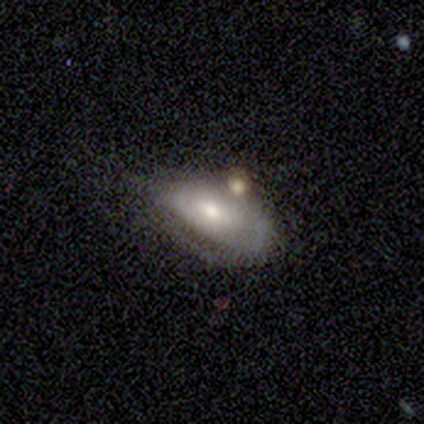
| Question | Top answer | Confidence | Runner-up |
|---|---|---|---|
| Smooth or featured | smooth | 40% | tied: featured or disk (40%) |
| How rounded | in between | 100% | — |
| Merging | minor disturbance | 50% | tied: major disturbance (50%) |